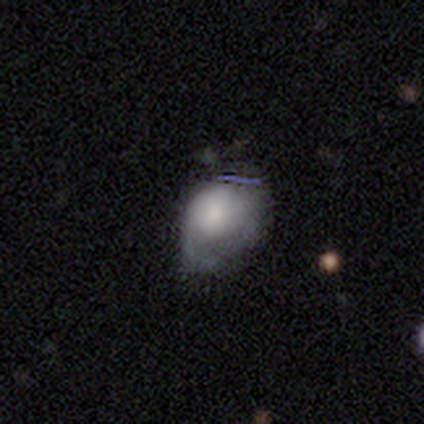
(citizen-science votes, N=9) Smooth or featured: featured or disk — 56% (smooth — 44%)
Edge-on disk: no — 100%
Bar: no — 100%
Spiral arms: yes — 60% (no — 40%)
Spiral winding: medium — 100%
Spiral arm count: 2 — 67% (1 — 33%)
Bulge size: dominant — 60% (small — 20%)
Merging: minor disturbance — 44% (none — 33%)